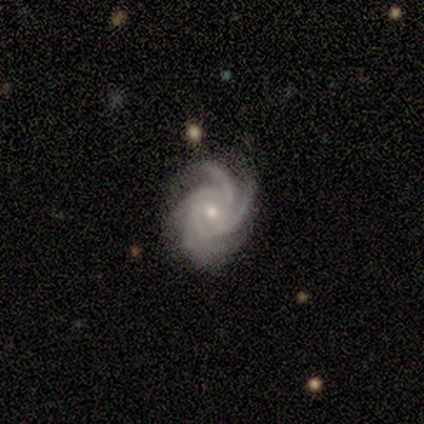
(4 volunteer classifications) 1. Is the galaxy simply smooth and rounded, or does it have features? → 100% featured or disk, 0% smooth, 0% star or artifact.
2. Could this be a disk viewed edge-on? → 100% no, 0% yes.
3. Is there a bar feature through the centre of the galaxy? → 75% no, 25% weak, 0% strong.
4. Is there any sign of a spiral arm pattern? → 100% yes, 0% no.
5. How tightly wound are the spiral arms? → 50% medium, 25% tight, 25% loose.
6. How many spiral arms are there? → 50% 4, 25% 3, 25% can't tell, 0% 1, 0% 2, 0% more than 4.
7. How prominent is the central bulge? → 75% small, 25% moderate, 0% dominant, 0% large, 0% none.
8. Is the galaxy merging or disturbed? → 75% none, 25% minor disturbance, 0% major disturbance, 0% merger.